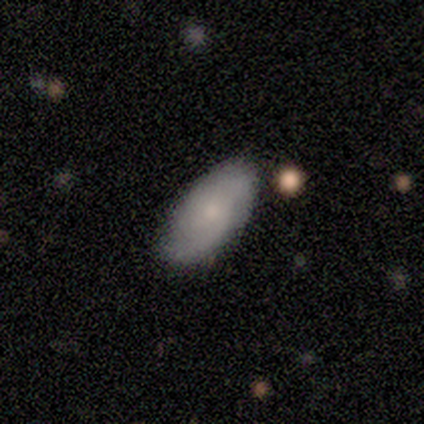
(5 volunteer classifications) Morphology: type=smooth (60%); roundness=in between (100%); merging=none (60%).